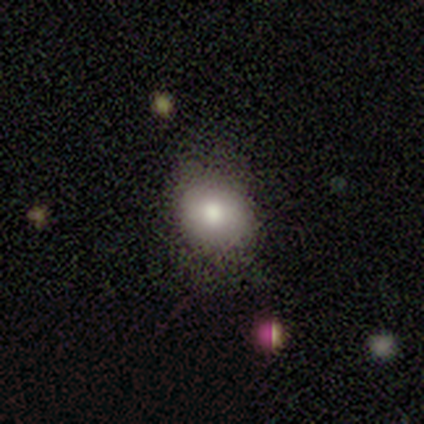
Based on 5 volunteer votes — Smooth or featured? 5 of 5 (100%) said smooth. How rounded? 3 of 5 (60%) said round. Merging? 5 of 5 (100%) said none.